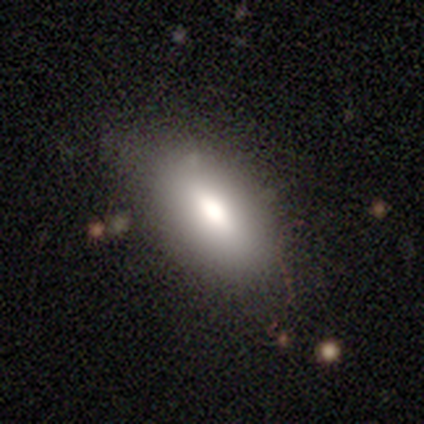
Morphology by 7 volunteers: Smooth or featured? smooth (100%)
How rounded? in between (100%)
Merging? none (71%)